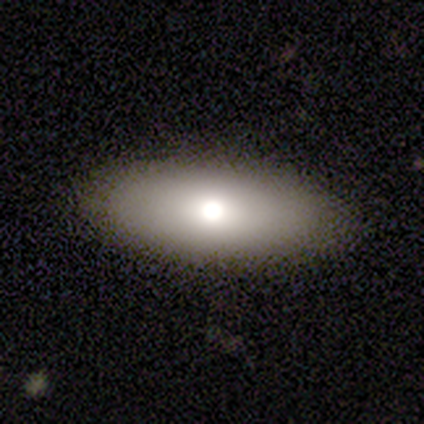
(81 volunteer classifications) This is likely a smooth galaxy (77%). How rounded: clearly in between (84%). Merging: possibly none (50%).